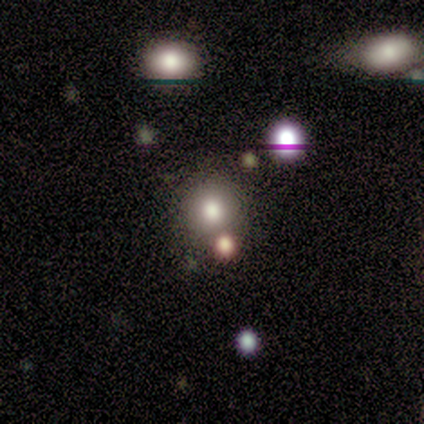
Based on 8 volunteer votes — This appears to be a smooth galaxy with no disk features (62%) that is round (100%). Merging: none (100%).